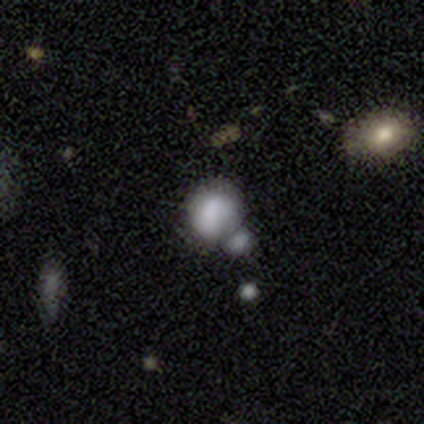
smooth 80%, featured or disk 20%, star or artifact 0%. Down the decision tree: how rounded — round (100%); merging — none (60%).